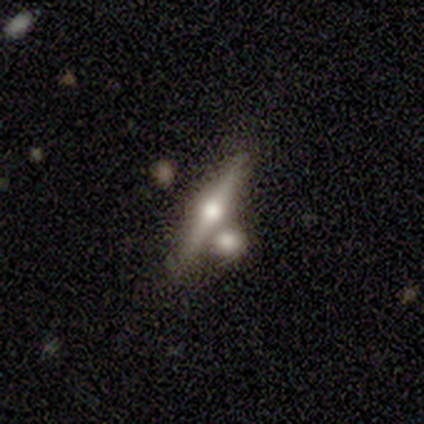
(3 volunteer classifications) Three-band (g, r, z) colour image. It shows a smooth galaxy with no disk features (33%, tied with featured or disk and star or artifact) that is cigar-shaped (100%). Merging: none (50%, tied with merger).